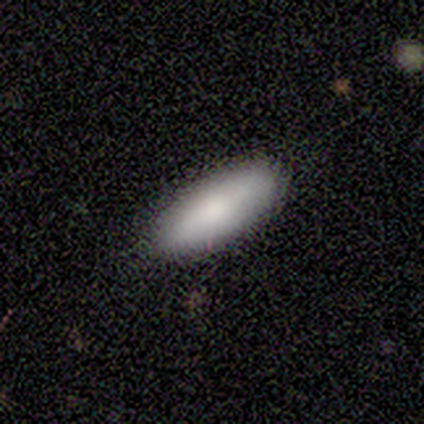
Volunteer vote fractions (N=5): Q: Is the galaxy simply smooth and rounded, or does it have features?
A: smooth — 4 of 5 (80%).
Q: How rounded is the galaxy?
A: in between — 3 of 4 (75%).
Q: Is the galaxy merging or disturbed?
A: none — 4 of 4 (100%).